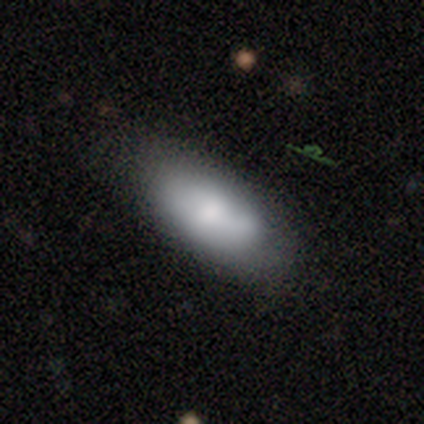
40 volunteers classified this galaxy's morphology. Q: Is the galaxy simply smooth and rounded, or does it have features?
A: smooth — 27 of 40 (68%).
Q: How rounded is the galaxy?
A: in between — 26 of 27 (96%).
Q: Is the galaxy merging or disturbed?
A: none — 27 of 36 (75%).